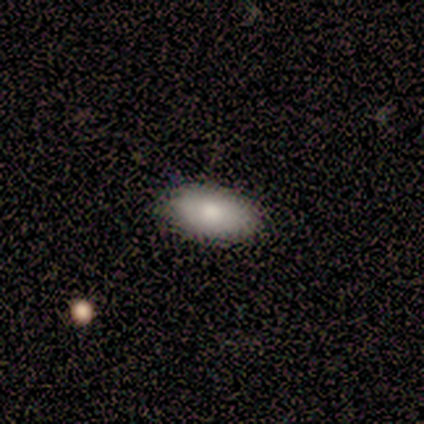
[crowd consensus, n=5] smooth-or-featured: smooth: 100% | featured or disk: 0% | star or artifact: 0%
  how-rounded: in between: 80% | cigar-shaped: 20% | round: 0%
  merging: none: 60% | minor disturbance: 20% | major disturbance: 20% | merger: 0%